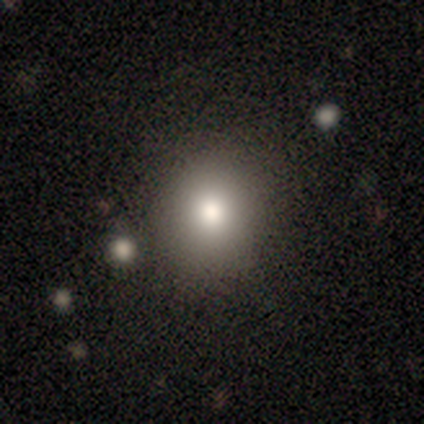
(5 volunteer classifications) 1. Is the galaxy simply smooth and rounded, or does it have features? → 100% smooth, 0% featured or disk, 0% star or artifact.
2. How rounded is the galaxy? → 100% round, 0% in between, 0% cigar-shaped.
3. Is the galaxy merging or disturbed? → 80% none, 20% merger, 0% minor disturbance, 0% major disturbance.